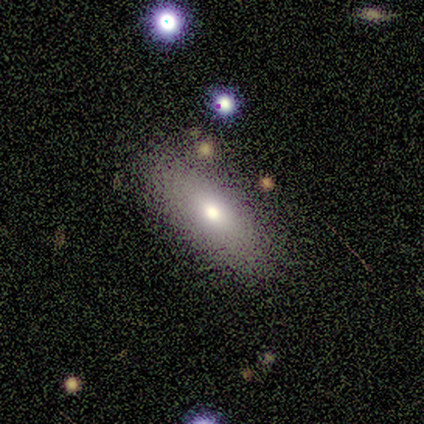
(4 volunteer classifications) Volunteers were most divided on "smooth or featured": smooth: 75%, featured or disk: 25%, star or artifact: 0%. More confident: how rounded — in between (100%); merging — none (100%).